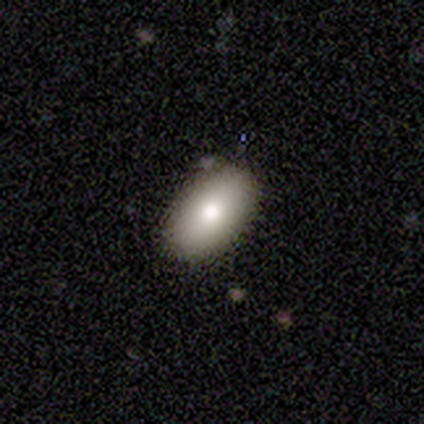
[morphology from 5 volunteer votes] smooth 60%, featured or disk 20%, star or artifact 20%. Down the decision tree: how rounded — in between (100%); merging — none (100%).